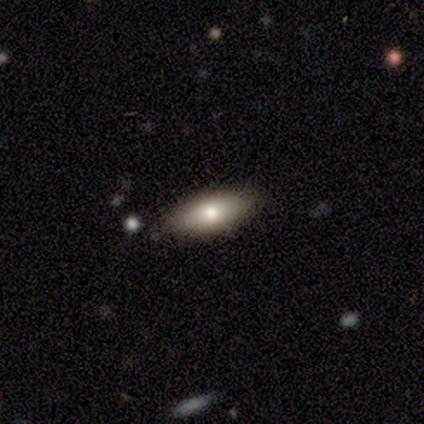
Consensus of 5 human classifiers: smooth 60%, star or artifact 40%, featured or disk 0%. Down the decision tree: how rounded — in between (100%); merging — minor disturbance (67%).